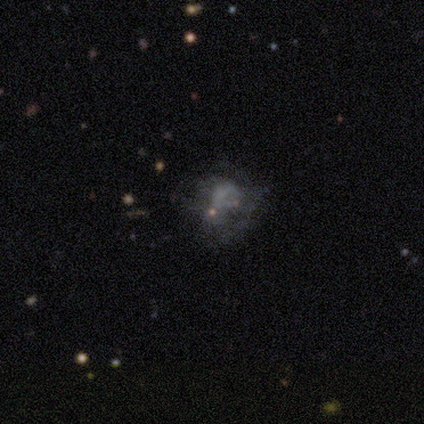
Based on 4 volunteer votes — A smooth galaxy with no disk features (50%, tied with star or artifact) that is round (100%). Merging: none (50%, tied with major disturbance).